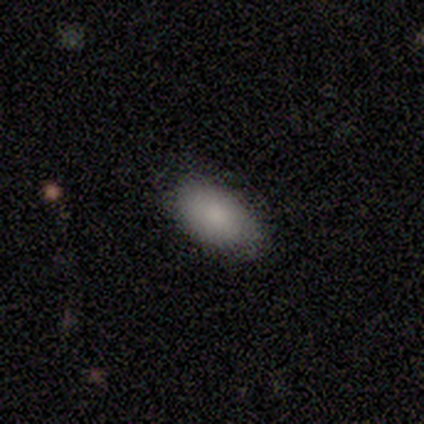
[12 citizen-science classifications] smooth_or_featured: smooth (p=0.92) [alt: featured or disk p=0.08]
how_rounded: in between (p=0.91) [alt: cigar-shaped p=0.09]
merging: none (p=0.83) [alt: minor disturbance p=0.17]